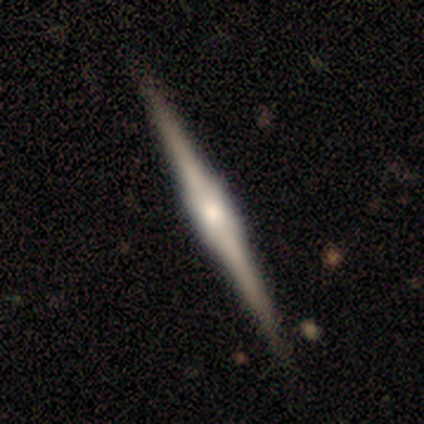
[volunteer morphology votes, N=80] This appears to be a featured or disk galaxy (91%) viewed edge-on (100%) with a boxy central bulge (71%). Merging: none (92%).